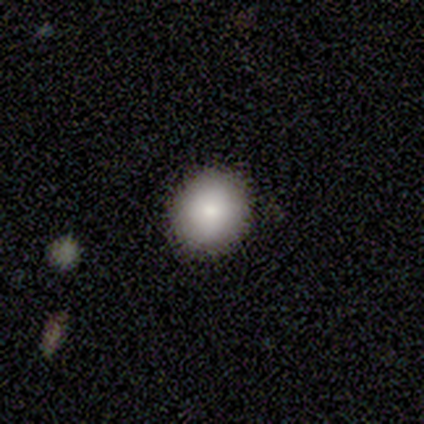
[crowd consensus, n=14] smooth_or_featured: smooth (p=0.79) [alt: featured or disk p=0.14]
how_rounded: round (p=0.91) [alt: in between p=0.09]
merging: none (p=0.92) [alt: merger p=0.08]